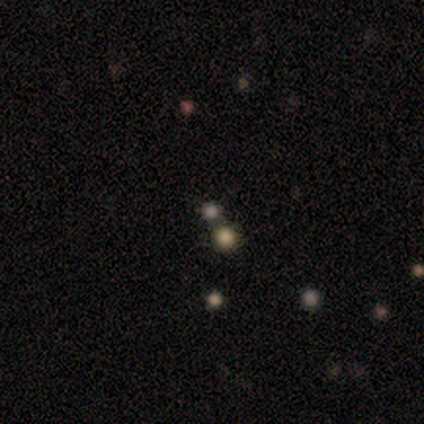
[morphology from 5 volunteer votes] Volunteers were most divided on "merging" (2-way tie): none: 50%, merger: 50%, minor disturbance: 0%, major disturbance: 0%. More confident: how rounded — round (100%); smooth or featured — smooth (80%).